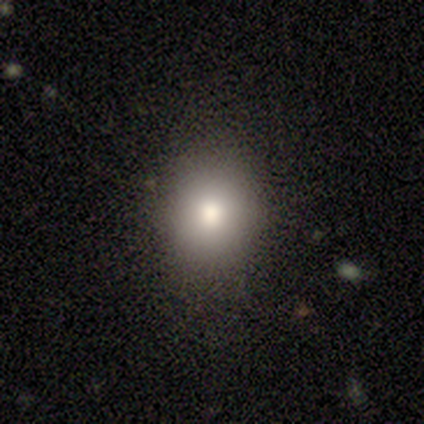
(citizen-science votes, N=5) Volunteers were most divided on "how rounded": round: 75%, in between: 25%, cigar-shaped: 0%. More confident: smooth or featured — smooth (80%); merging — none (75%).